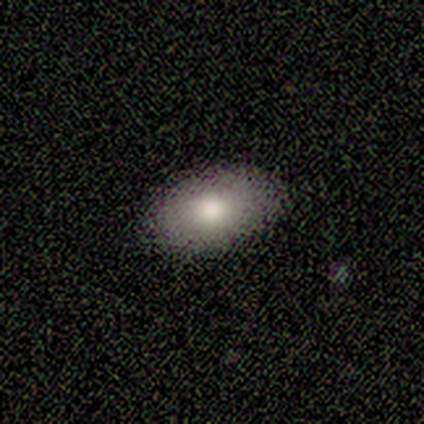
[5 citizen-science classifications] A smooth galaxy with no disk features (80%) that is in between round and cigar-shaped (100%).

Vote fractions:
- Smooth or featured? smooth: 80% / featured or disk: 20% / star or artifact: 0%
- How rounded? in between: 100% / round: 0% / cigar-shaped: 0%
- Merging? none: 100% / minor disturbance: 0% / major disturbance: 0% / merger: 0%